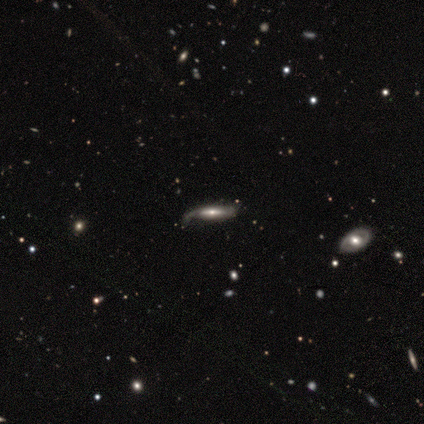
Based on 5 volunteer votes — Smooth or featured? smooth (60%)
How rounded? cigar-shaped (67%)
Merging? merger (40%)